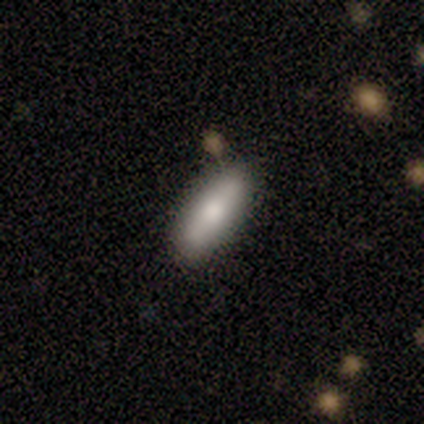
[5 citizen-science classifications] A smooth galaxy with no disk features (100%) that is in between round and cigar-shaped (100%).

Vote fractions:
- Smooth or featured? smooth: 100% / featured or disk: 0% / star or artifact: 0%
- How rounded? in between: 100% / round: 0% / cigar-shaped: 0%
- Merging? none: 100% / minor disturbance: 0% / major disturbance: 0% / merger: 0%